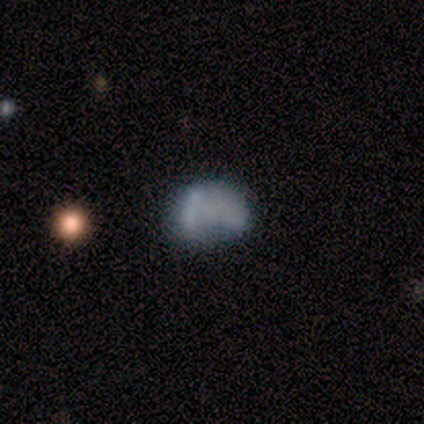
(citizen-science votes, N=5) This is likely a featured or disk galaxy (60%). It is clearly not viewed edge-on (100%). Bar: clearly no (100%). Spiral arm pattern: clearly no (100%). Central bulge: clearly none (100%). Merging: likely minor disturbance (60%).